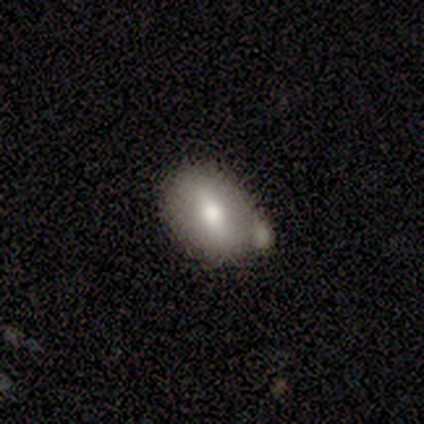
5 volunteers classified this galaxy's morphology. Smooth or featured?
  - smooth: 60% *
  - featured or disk: 40%
  - star or artifact: 0%
How rounded?
  - in between: 67% *
  - round: 33%
  - cigar-shaped: 0%
Merging?
  - none: 40% * (tied)
  - merger: 40% * (tied)
  - minor disturbance: 20%
  - major disturbance: 0%